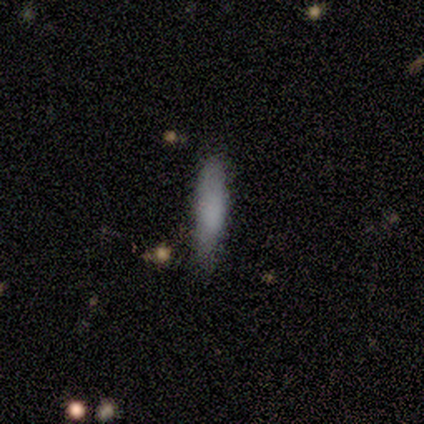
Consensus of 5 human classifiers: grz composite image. It shows a smooth galaxy with no disk features (80%) that is cigar-shaped (75%). Merging: none (80%).